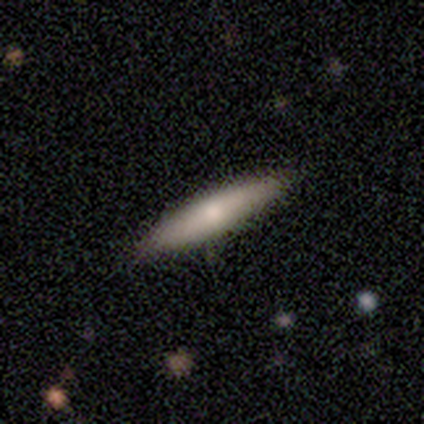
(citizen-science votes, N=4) smooth 50% (tied), featured or disk 50% (tied), star or artifact 0%. Down the decision tree: how rounded — cigar-shaped (100%); merging — none (75%).